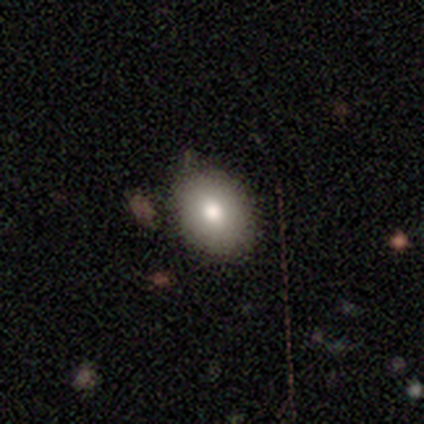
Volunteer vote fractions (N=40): This appears to be a smooth galaxy with no disk features (78%) that is in between round and cigar-shaped (58%). Merging: none (79%).